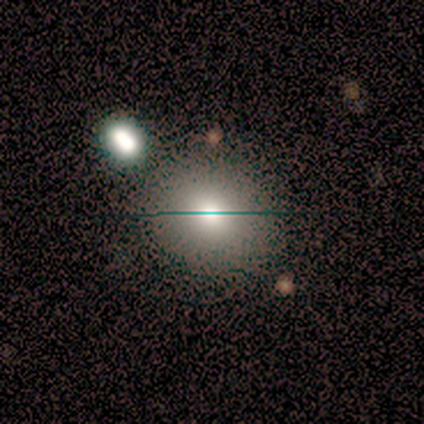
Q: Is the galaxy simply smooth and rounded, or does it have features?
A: smooth — 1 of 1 (100%).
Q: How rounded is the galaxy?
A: round — 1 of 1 (100%).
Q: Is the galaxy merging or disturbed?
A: none — 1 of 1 (100%).